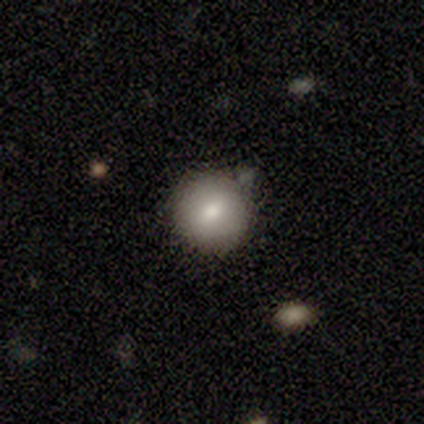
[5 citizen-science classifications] Volunteers were most divided on "smooth or featured": smooth: 80%, star or artifact: 20%, featured or disk: 0%. More confident: how rounded — round (100%); merging — none (100%).